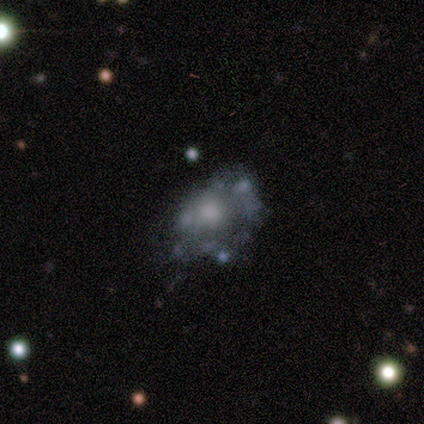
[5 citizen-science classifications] This appears to be a smooth galaxy with no disk features (40%, tied with featured or disk) that is round (50%, tied with in between). Merging: major disturbance (50%).